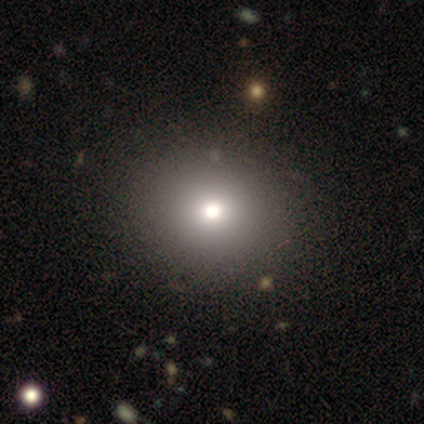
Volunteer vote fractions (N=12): smooth-or-featured: smooth: 42% (tied) | star or artifact: 42% (tied) | featured or disk: 17%
  how-rounded: round: 80% | in between: 20% | cigar-shaped: 0%
  merging: none: 57% | minor disturbance: 29% | major disturbance: 14% | merger: 0%